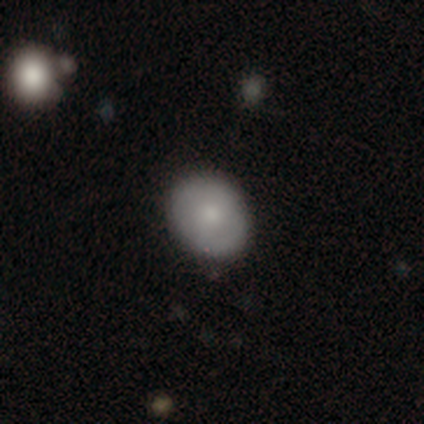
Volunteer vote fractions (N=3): Volunteers were most divided on "how rounded": in between: 67%, round: 33%, cigar-shaped: 0%. More confident: smooth or featured — smooth (100%); merging — none (100%).